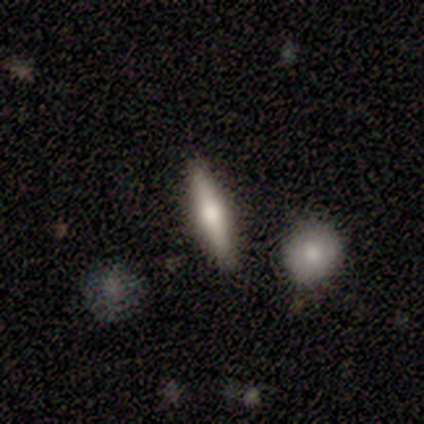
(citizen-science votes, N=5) Overall: featured or disk (60%; smooth 40%). Edge-on disk: yes (100%). Edge-on bulge: rounded (100%). Merging: none (80%).